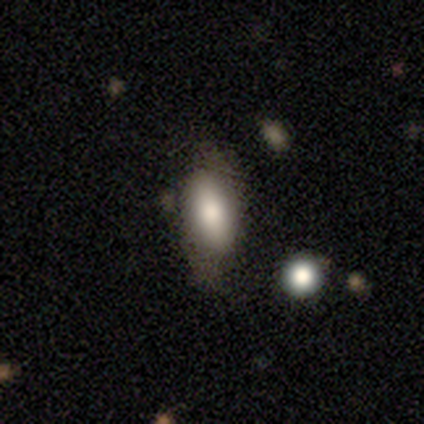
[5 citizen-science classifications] Overall: smooth (40%, tied with star or artifact). How rounded: in between (100%). Merging: minor disturbance (67%; major disturbance 33%).